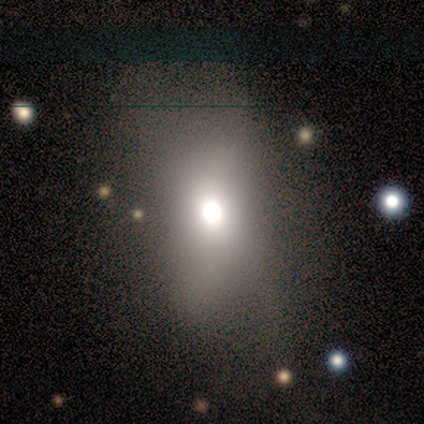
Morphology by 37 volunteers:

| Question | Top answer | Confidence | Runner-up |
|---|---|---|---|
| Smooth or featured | smooth | 59% | star or artifact (32%) |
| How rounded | in between | 77% | round (14%) |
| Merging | none | 44% | minor disturbance (28%) |